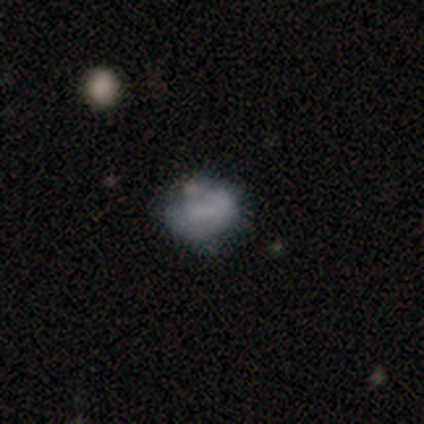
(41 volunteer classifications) Smooth or featured: smooth — 54% (featured or disk — 34%)
How rounded: in between — 55% (round — 45%)
Merging: none — 53% (minor disturbance — 22%)